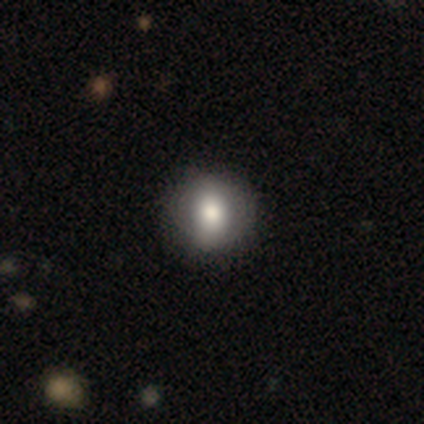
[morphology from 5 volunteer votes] A featured or disk galaxy (60%) with a weak bar (50%, tied with no), no spiral arms (100%) and a moderate central bulge (100%). Merging: none (100%).